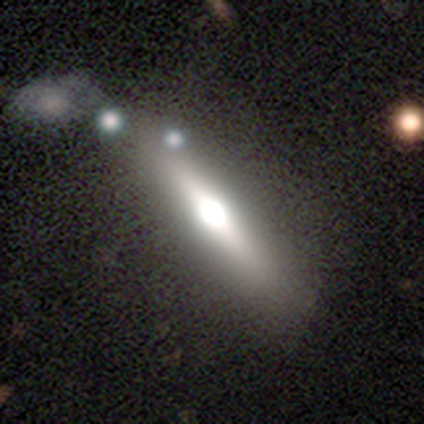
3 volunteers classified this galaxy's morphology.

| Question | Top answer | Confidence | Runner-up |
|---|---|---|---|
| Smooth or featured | featured or disk | 100% | — |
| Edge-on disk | yes | 100% | — |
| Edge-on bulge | rounded | 67% | boxy (33%) |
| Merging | none | 67% | merger (33%) |